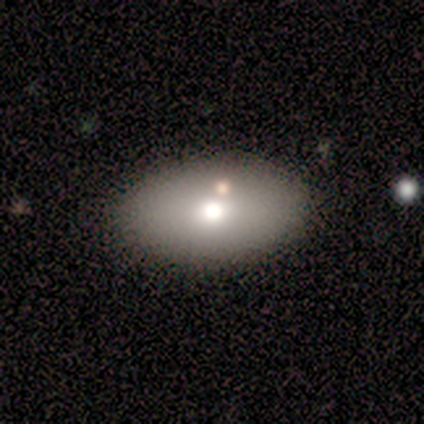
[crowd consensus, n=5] Smooth or featured?
  - smooth: 60% *
  - featured or disk: 20%
  - star or artifact: 20%
How rounded?
  - in between: 100% *
  - round: 0%
  - cigar-shaped: 0%
Merging?
  - none: 75% *
  - minor disturbance: 25%
  - major disturbance: 0%
  - merger: 0%